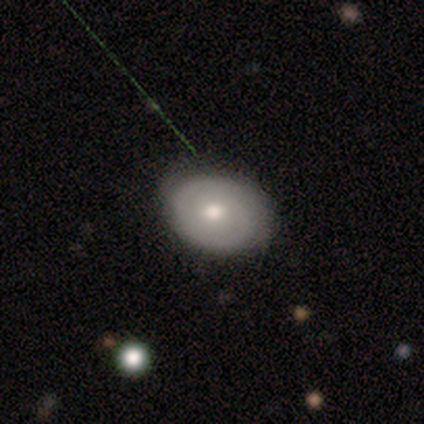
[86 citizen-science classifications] Smooth or featured?
  - featured or disk: 52% *
  - smooth: 43%
  - star or artifact: 5%
Edge-on disk?
  - no: 98% *
  - yes: 2%
Bar?
  - no: 57% *
  - weak: 36%
  - strong: 7%
Spiral arms?
  - yes: 80% *
  - no: 20%
Spiral winding?
  - tight: 66% *
  - medium: 20%
  - loose: 14%
Spiral arm count?
  - 2: 69% *
  - can't tell: 20%
  - 1: 6%
  - 3: 3%
  - more than 4: 3%
  - 4: 0%
Bulge size?
  - moderate: 70% *
  - small: 23%
  - dominant: 7%
  - large: 0%
  - none: 0%
Merging?
  - none: 79% *
  - minor disturbance: 13%
  - major disturbance: 6%
  - merger: 1%